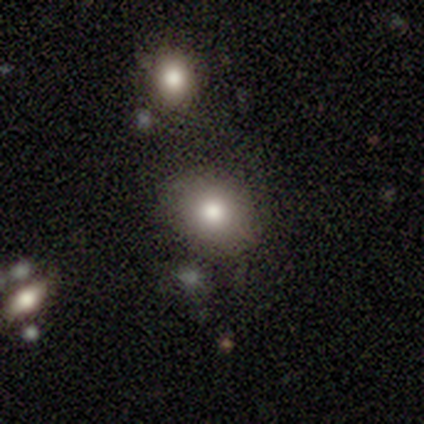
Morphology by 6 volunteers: Smooth or featured? 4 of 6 (67%) said smooth. How rounded? 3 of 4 (75%) said in between. Merging? 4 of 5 (80%) said none.